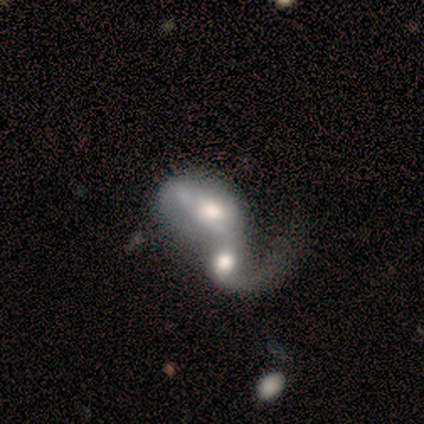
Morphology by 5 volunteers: featured or disk 60%, smooth 20%, star or artifact 20%. Down the decision tree: edge-on disk — no (100%); bar — no (67%); spiral arms — yes (100%); spiral arm count — 1 (33%, tied with 2 and can't tell); spiral winding — loose (100%); bulge size — large (67%); merging — merger (100%).